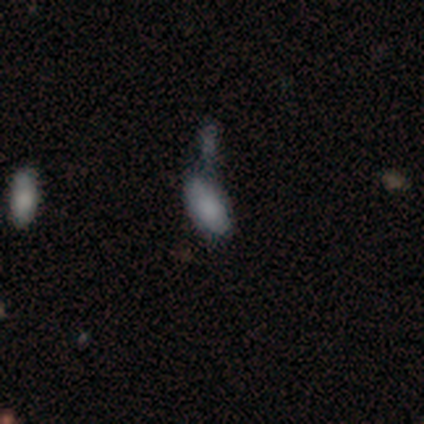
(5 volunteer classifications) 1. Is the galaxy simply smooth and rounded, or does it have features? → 80% smooth, 20% star or artifact, 0% featured or disk.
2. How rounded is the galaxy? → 100% in between, 0% round, 0% cigar-shaped.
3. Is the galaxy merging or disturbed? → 50% minor disturbance, 25% major disturbance, 25% merger, 0% none.